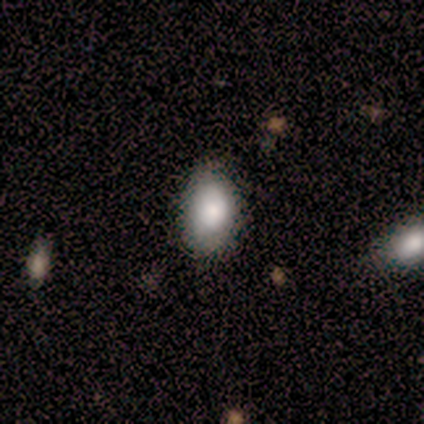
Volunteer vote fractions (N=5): Smooth or featured? smooth (60%)
How rounded? in between (100%)
Merging? none (50%)